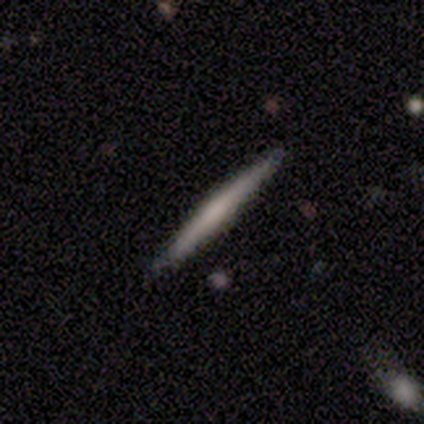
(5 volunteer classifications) smooth_or_featured: smooth (p=0.80) [alt: featured or disk p=0.20]
how_rounded: cigar-shaped (p=1.00)
merging: none (p=1.00)